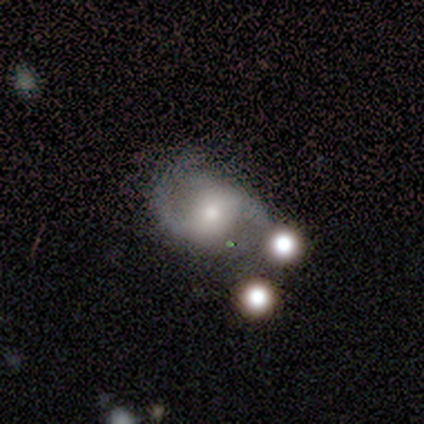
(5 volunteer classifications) Smooth or featured? featured or disk (80%)
Edge-on disk? no (100%)
Bar? no (75%)
Spiral arms? yes (75%)
Spiral winding? tight (100%)
Spiral arm count? 2 (67%)
Bulge size? small (50%)
Merging? none (50%, tied with merger)